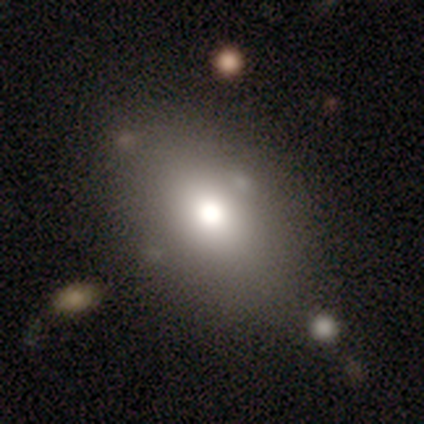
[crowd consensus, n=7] A smooth galaxy with no disk features (57%) that is in between round and cigar-shaped (100%). Merging: none (80%).